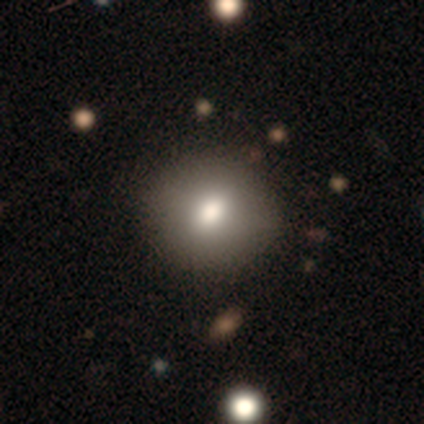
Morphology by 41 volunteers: smooth 83%, featured or disk 12%, star or artifact 5%. Down the decision tree: how rounded — round (85%); merging — none (51%).